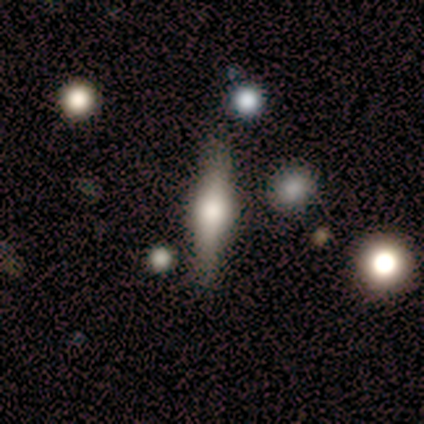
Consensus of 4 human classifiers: Smooth or featured? featured or disk (100%)
Edge-on disk? yes (75%)
Edge-on bulge? rounded (100%)
Merging? none (75%)